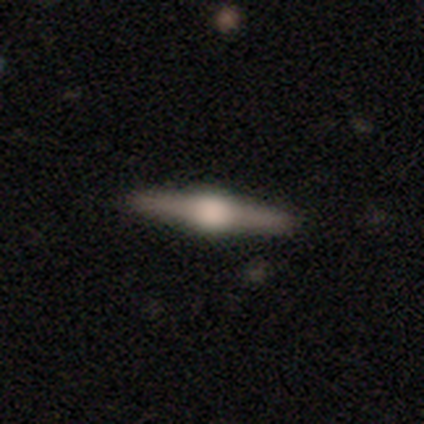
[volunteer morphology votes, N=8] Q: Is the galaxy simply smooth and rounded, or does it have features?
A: featured or disk — 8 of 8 (100%).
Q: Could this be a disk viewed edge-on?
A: yes — 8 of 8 (100%).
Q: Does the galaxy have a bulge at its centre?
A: rounded — 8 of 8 (100%).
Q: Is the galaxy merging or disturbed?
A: none — 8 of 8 (100%).